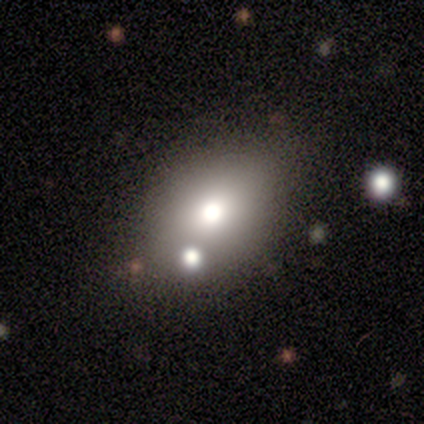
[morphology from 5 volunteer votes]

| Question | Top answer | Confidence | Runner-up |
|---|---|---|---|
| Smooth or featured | smooth | 80% | star or artifact (20%) |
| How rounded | in between | 75% | round (25%) |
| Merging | none | 50% | minor disturbance (25%) |